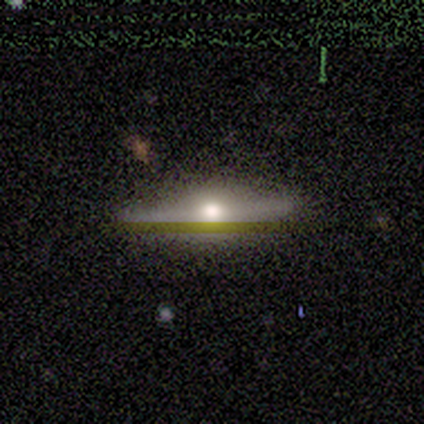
Volunteers were most divided on "edge-on bulge": rounded: 67%, boxy: 33%, none: 0%. More confident: edge-on disk — yes (100%); merging — none (75%); smooth or featured — featured or disk (60%).